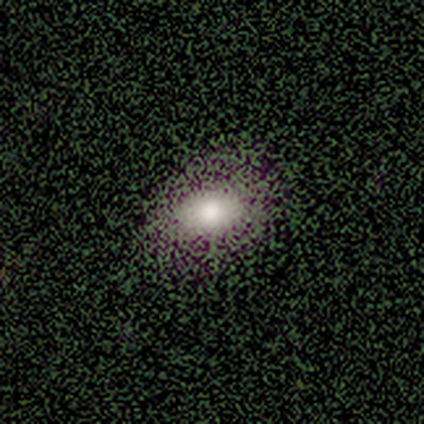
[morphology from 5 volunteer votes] smooth 60%, featured or disk 20%, star or artifact 20%. Down the decision tree: how rounded — in between (100%); merging — none (100%).